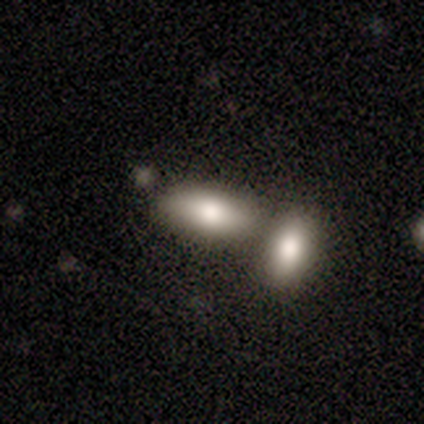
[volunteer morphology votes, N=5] type=smooth (60%); roundness=in between (100%); merging=merger (60%).